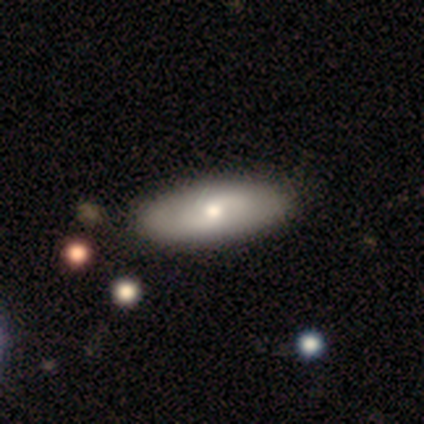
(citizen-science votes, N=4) This appears to be a smooth galaxy with no disk features (75%) that is in between round and cigar-shaped (67%). Merging: none (67%).